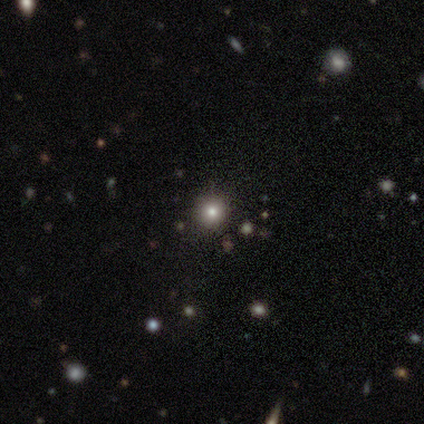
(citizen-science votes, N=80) Q: Smooth or featured?
A: smooth (68%); runner-up: star or artifact (29%)
Q: How rounded?
A: round (96%); runner-up: in between (4%)
Q: Merging?
A: none (56%)